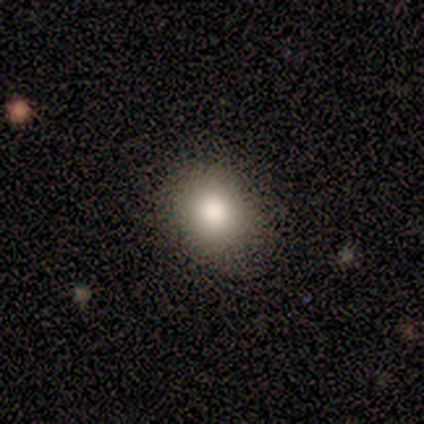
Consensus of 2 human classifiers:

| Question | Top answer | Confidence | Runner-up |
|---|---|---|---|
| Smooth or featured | smooth | 100% | — |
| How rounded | round | 50% | tied: in between (50%) |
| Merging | none | 50% | tied: minor disturbance (50%) |